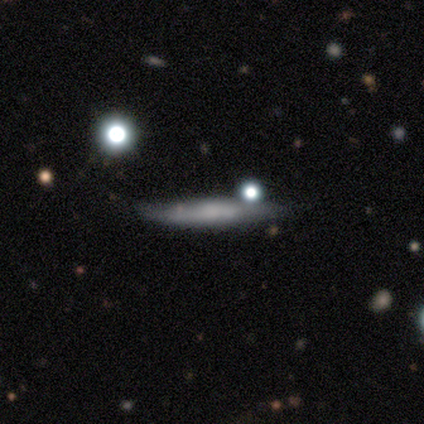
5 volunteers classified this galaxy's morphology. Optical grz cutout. It shows a smooth galaxy with no disk features (60%) that is cigar-shaped (67%). Merging: none (60%).